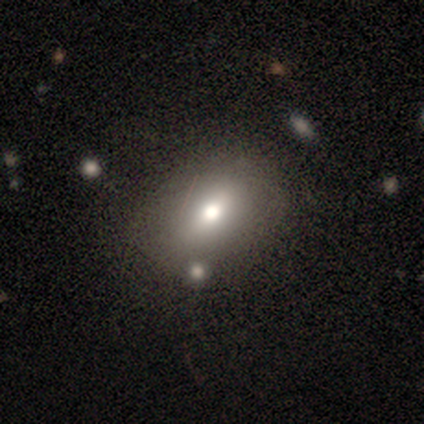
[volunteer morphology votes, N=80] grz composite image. It shows a smooth galaxy with no disk features (64%) that is in between round and cigar-shaped (65%). Merging: none (35%).